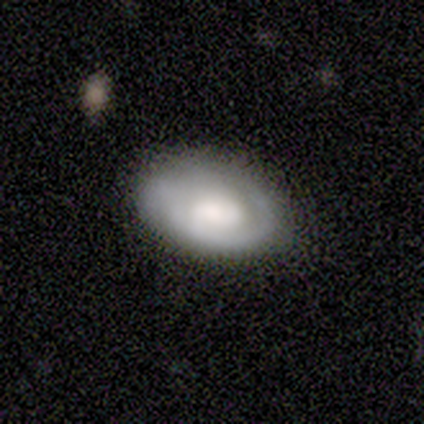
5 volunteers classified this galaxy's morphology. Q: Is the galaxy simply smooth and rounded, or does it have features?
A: smooth — 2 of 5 (40%, tied with featured or disk).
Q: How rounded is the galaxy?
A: round — 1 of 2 (50%, tied with in between).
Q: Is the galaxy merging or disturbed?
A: none — 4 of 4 (100%).